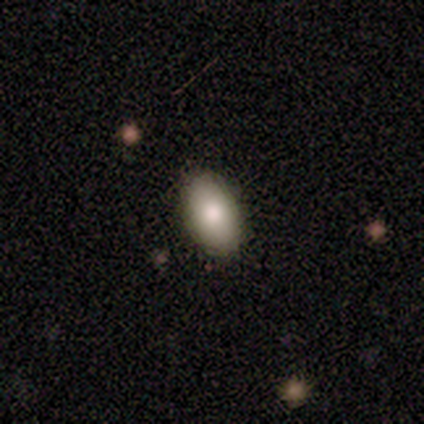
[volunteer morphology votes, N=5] A smooth galaxy with no disk features (80%) that is in between round and cigar-shaped (100%).

Vote fractions:
- Smooth or featured? smooth: 80% / star or artifact: 20% / featured or disk: 0%
- How rounded? in between: 100% / round: 0% / cigar-shaped: 0%
- Merging? none: 75% / minor disturbance: 25% / major disturbance: 0% / merger: 0%